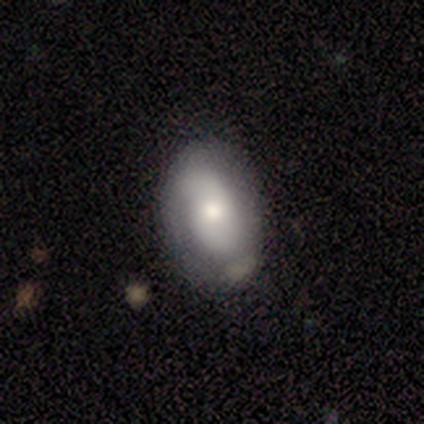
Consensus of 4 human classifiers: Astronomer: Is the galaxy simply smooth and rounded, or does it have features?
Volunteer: featured or disk — 75%.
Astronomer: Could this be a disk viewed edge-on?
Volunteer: no — 100%.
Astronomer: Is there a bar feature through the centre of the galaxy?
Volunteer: strong — 33%, tied with weak and no at 33%.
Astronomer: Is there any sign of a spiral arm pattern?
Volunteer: yes — 100%.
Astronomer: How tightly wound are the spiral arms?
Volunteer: tight — 33%, tied with medium and loose at 33%.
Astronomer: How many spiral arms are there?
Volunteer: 1 — 67%.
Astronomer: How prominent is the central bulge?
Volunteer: moderate — 67%.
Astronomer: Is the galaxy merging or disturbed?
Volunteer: none — 75%.